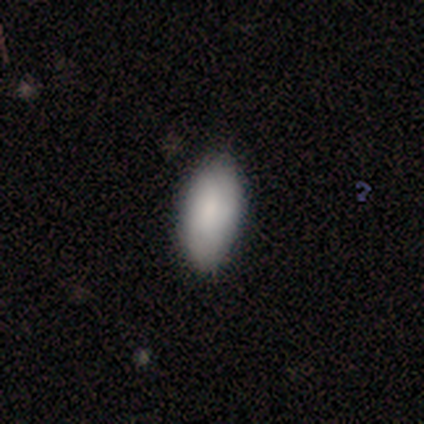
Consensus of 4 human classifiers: Volunteers were most divided on "merging": none: 75%, major disturbance: 25%, minor disturbance: 0%, merger: 0%. More confident: smooth or featured — smooth (100%); how rounded — in between (100%).